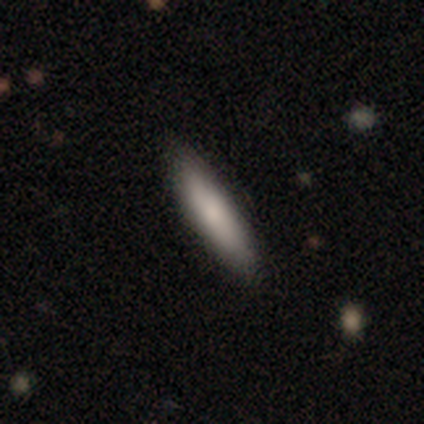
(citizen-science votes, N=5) A smooth galaxy with no disk features (100%) that is cigar-shaped (80%).

Vote fractions:
- Smooth or featured? smooth: 100% / featured or disk: 0% / star or artifact: 0%
- How rounded? cigar-shaped: 80% / in between: 20% / round: 0%
- Merging? none: 100% / minor disturbance: 0% / major disturbance: 0% / merger: 0%